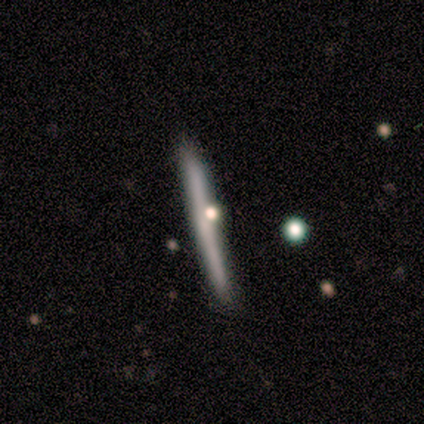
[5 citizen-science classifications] Volunteers were most divided on "edge-on bulge": none: 75%, rounded: 25%, boxy: 0%. More confident: edge-on disk — yes (100%); smooth or featured — featured or disk (80%); merging — none (80%).